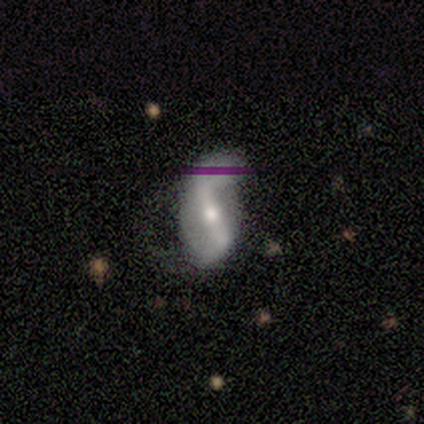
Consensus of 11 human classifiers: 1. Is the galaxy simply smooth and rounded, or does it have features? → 100% featured or disk, 0% smooth, 0% star or artifact.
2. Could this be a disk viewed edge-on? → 91% no, 9% yes.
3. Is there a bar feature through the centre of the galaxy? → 80% strong, 20% weak, 0% no.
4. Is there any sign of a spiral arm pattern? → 100% yes, 0% no.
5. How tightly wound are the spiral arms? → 80% loose, 20% medium, 0% tight.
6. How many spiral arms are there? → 90% 2, 10% 1, 0% 3, 0% 4, 0% more than 4, 0% can't tell.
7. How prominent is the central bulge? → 50% moderate, 40% small, 10% dominant, 0% large, 0% none.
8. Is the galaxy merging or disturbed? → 73% none, 27% minor disturbance, 0% major disturbance, 0% merger.